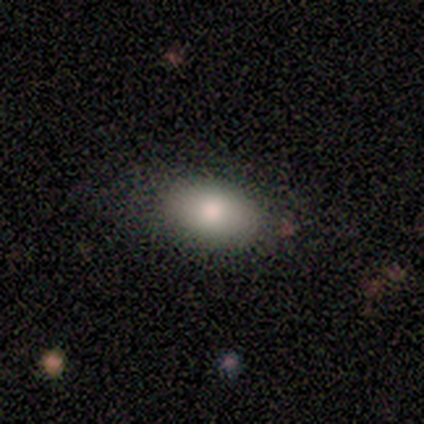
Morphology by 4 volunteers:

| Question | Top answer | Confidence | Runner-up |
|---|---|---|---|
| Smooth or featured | smooth | 100% | — |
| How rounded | in between | 100% | — |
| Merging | none | 100% | — |